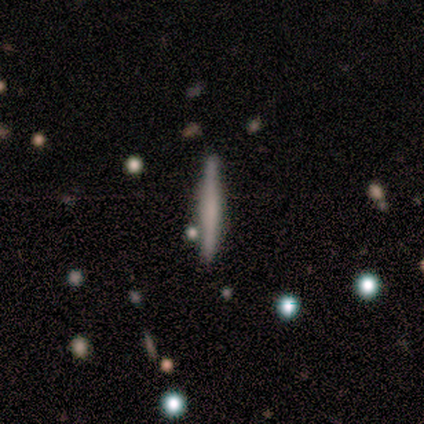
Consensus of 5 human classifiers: A featured or disk galaxy (60%) viewed edge-on (100%) with a boxy central bulge (33%, tied with none and rounded). Merging: none (100%).